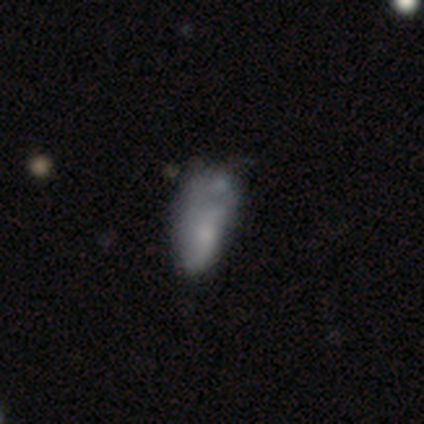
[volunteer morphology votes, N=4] smooth_or_featured: smooth (p=0.50) [tied with: featured or disk p=0.50]
how_rounded: in between (p=1.00)
merging: none (p=0.50) [alt: minor disturbance p=0.25]